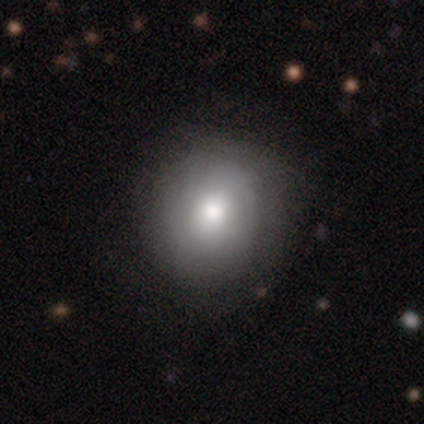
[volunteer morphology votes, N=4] Smooth or featured? 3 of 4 (75%) said featured or disk. Edge-on disk? 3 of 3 (100%) said no. Bar? 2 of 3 (67%) said no. Spiral arms? 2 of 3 (67%) said yes. Spiral winding? 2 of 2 (100%) said medium. Spiral arm count? 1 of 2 (50%, tied with can't tell) said 4. Bulge size? 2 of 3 (67%) said large. Merging? 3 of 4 (75%) said none.